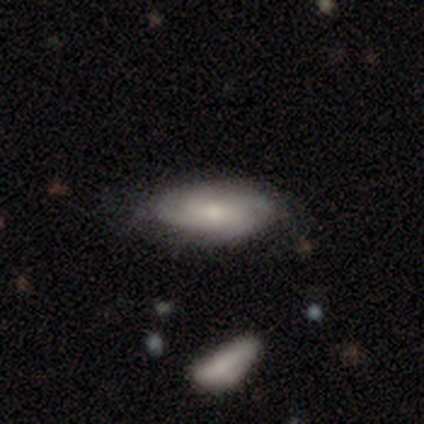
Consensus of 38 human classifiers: Volunteers were most divided on "spiral winding": medium: 50%, tight: 44%, loose: 6%. More confident: edge-on disk — no (91%); bar — no (81%); spiral arms — yes (76%); bulge size — small (71%); merging — none (67%); smooth or featured — featured or disk (61%); spiral arm count — 4 (50%).